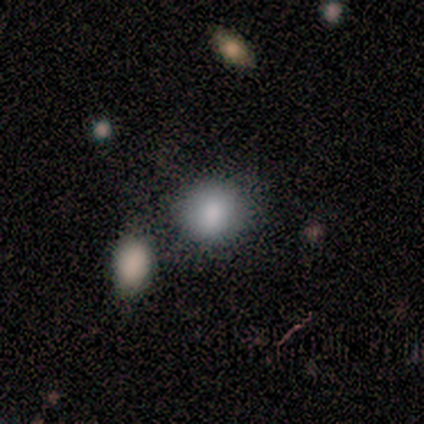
Q: Smooth or featured?
A: smooth (100%)
Q: How rounded?
A: round (67%); runner-up: in between (33%)
Q: Merging?
A: none (67%); runner-up: major disturbance (17%)